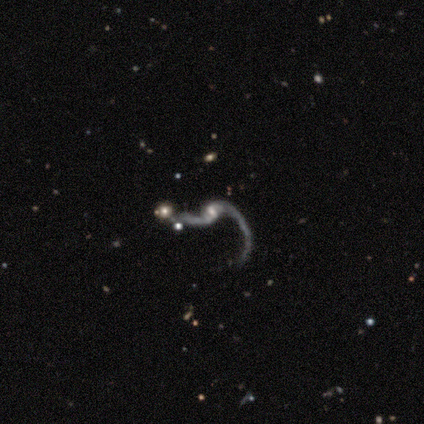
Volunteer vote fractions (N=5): smooth_or_featured: featured or disk (p=1.00)
disk_edge_on: no (p=1.00)
bar: weak (p=0.60) [alt: no p=0.40]
has_spiral_arms: yes (p=0.80) [alt: no p=0.20]
spiral_winding: loose (p=1.00)
spiral_arm_count: 2 (p=1.00)
bulge_size: small (p=1.00)
merging: none (p=0.40) [tied with: major disturbance p=0.40]